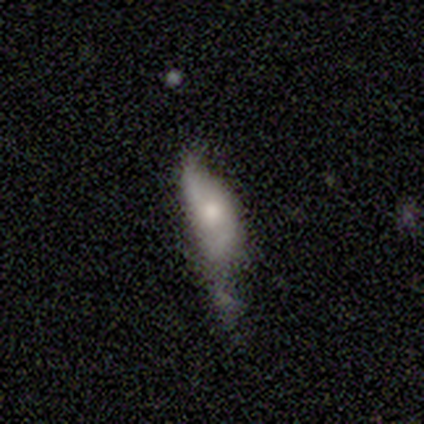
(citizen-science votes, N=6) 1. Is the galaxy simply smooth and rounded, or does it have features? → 50% smooth (tied), 50% featured or disk (tied), 0% star or artifact.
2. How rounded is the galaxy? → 67% cigar-shaped, 33% in between, 0% round.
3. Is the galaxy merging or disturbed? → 33% none (tied), 33% minor disturbance (tied), 33% major disturbance (tied), 0% merger.